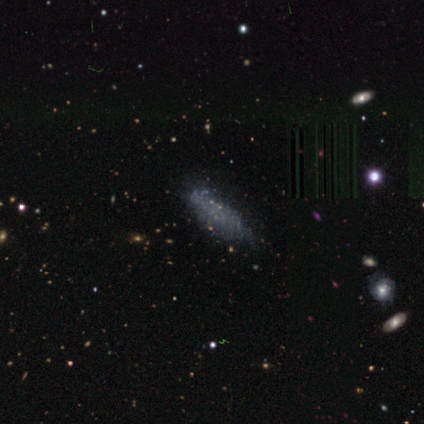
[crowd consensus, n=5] A star or artifact, not a galaxy (60%).

Vote fractions:
- Smooth or featured? star or artifact: 60% / smooth: 20% / featured or disk: 20%